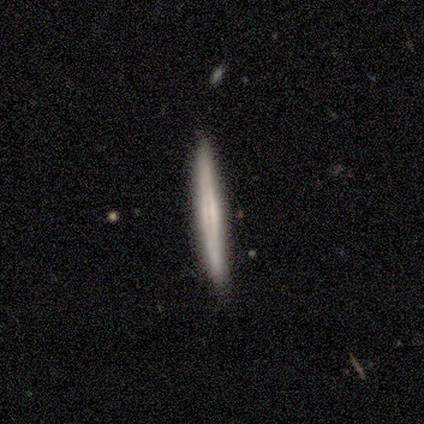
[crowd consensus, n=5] A smooth galaxy with no disk features (60%) that is cigar-shaped (100%). Merging: none (80%).